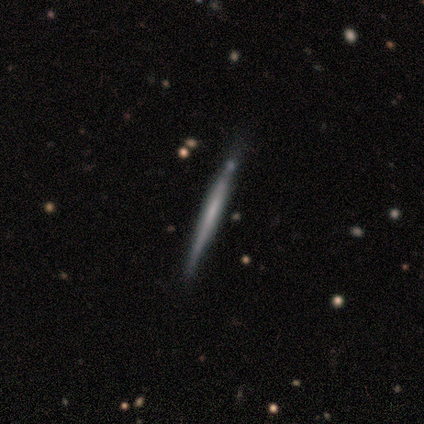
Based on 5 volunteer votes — smooth_or_featured: featured or disk (p=1.00)
disk_edge_on: yes (p=1.00)
edge_on_bulge: none (p=1.00)
merging: none (p=1.00)